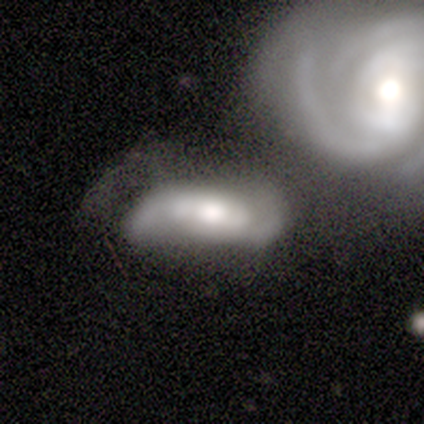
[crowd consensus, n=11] A featured or disk galaxy (64%) with no bar (83%), 2 (100%) tight (50%) spiral arms (67%) and a large central bulge (50%, tied with moderate).

Vote fractions:
- Smooth or featured? featured or disk: 64% / smooth: 36% / star or artifact: 0%
- Edge-on disk? no: 86% / yes: 14%
- Bar? no: 83% / strong: 17% / weak: 0%
- Spiral arms? yes: 67% / no: 33%
- Spiral winding? tight: 50% / medium: 25% / loose: 25%
- Spiral arm count? 2: 100% / 1: 0% / 3: 0% / 4: 0% / more than 4: 0% / can't tell: 0%
- Bulge size? large: 50% (tied) / moderate: 50% (tied) / dominant: 0% / small: 0% / none: 0%
- Merging? none: 36% (tied) / merger: 36% (tied) / major disturbance: 27% / minor disturbance: 0%